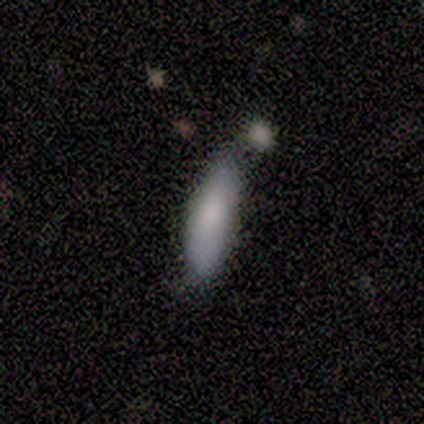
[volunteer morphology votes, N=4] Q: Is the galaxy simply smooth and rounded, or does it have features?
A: smooth — 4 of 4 (100%).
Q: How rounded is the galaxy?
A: in between — 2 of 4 (50%, tied with cigar-shaped).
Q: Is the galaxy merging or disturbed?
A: minor disturbance — 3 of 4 (75%).